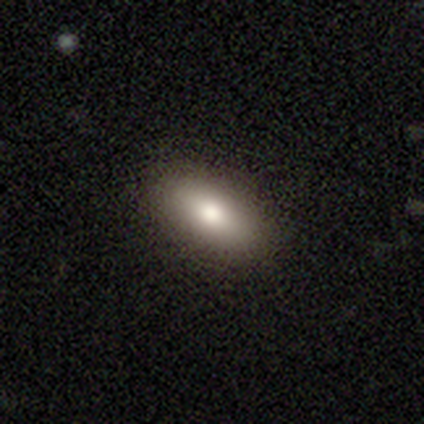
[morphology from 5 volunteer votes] Smooth or featured: smooth — 100%
How rounded: in between — 100%
Merging: none — 100%